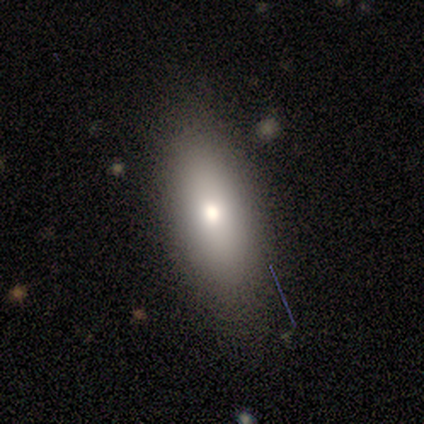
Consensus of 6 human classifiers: smooth-or-featured: smooth: 83% | featured or disk: 17% | star or artifact: 0%
  how-rounded: in between: 60% | cigar-shaped: 40% | round: 0%
  merging: none: 67% | minor disturbance: 17% | major disturbance: 17% | merger: 0%